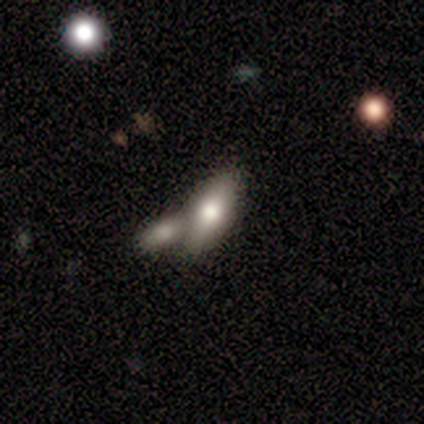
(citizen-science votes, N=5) Smooth or featured?
  - smooth: 80% *
  - featured or disk: 20%
  - star or artifact: 0%
How rounded?
  - in between: 100% *
  - round: 0%
  - cigar-shaped: 0%
Merging?
  - merger: 80% *
  - none: 20%
  - minor disturbance: 0%
  - major disturbance: 0%